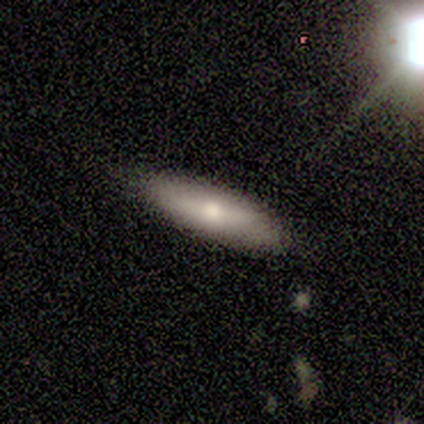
smooth 100%, featured or disk 0%, star or artifact 0%. Down the decision tree: how rounded — in between (80%); merging — none (80%).